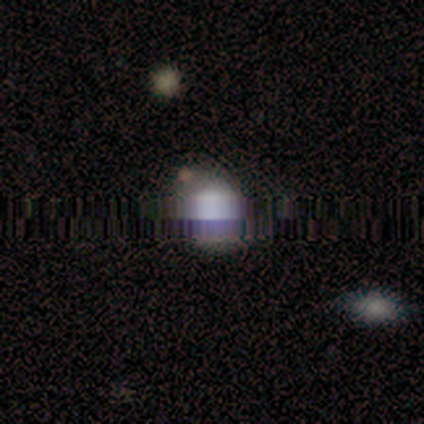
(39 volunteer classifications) Smooth or featured? smooth (51%)
How rounded? round (50%, tied with in between)
Merging? none (60%)